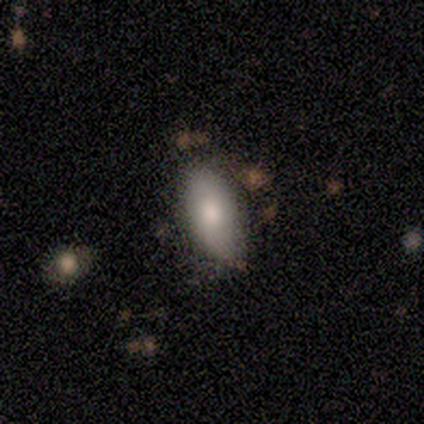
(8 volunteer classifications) Volunteers were most divided on "merging" (2-way tie): none: 43%, minor disturbance: 43%, major disturbance: 14%, merger: 0%. More confident: smooth or featured — smooth (75%); how rounded — in between (67%).